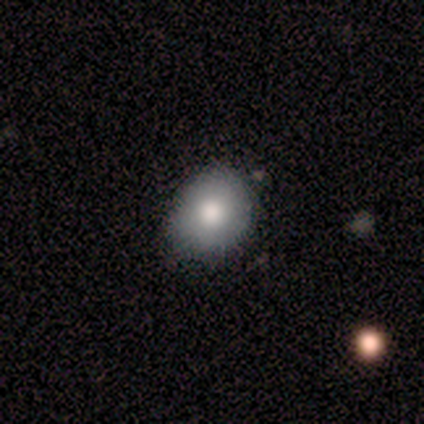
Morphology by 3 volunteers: smooth 100%, featured or disk 0%, star or artifact 0%. Down the decision tree: how rounded — round (100%); merging — none (33%, tied with minor disturbance and merger).